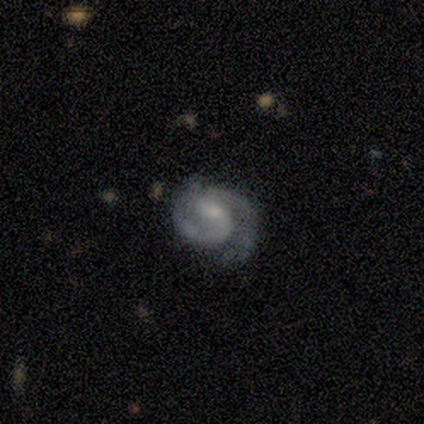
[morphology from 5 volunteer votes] A featured or disk galaxy (100%) with a weak bar (60%), 2 (100%) medium (80%) spiral arms (100%) and a small central bulge (80%).

Vote fractions:
- Smooth or featured? featured or disk: 100% / smooth: 0% / star or artifact: 0%
- Edge-on disk? no: 100% / yes: 0%
- Bar? weak: 60% / strong: 20% / no: 20%
- Spiral arms? yes: 100% / no: 0%
- Spiral winding? medium: 80% / tight: 20% / loose: 0%
- Spiral arm count? 2: 100% / 1: 0% / 3: 0% / 4: 0% / more than 4: 0% / can't tell: 0%
- Bulge size? small: 80% / moderate: 20% / dominant: 0% / large: 0% / none: 0%
- Merging? none: 40% (tied) / minor disturbance: 40% (tied) / major disturbance: 20% / merger: 0%